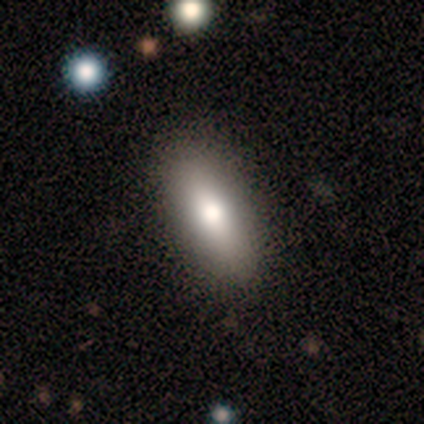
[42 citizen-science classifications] Smooth or featured?
  - smooth: 76% *
  - featured or disk: 24%
  - star or artifact: 0%
How rounded?
  - in between: 84% *
  - cigar-shaped: 12%
  - round: 3%
Merging?
  - none: 95% *
  - minor disturbance: 5%
  - major disturbance: 0%
  - merger: 0%